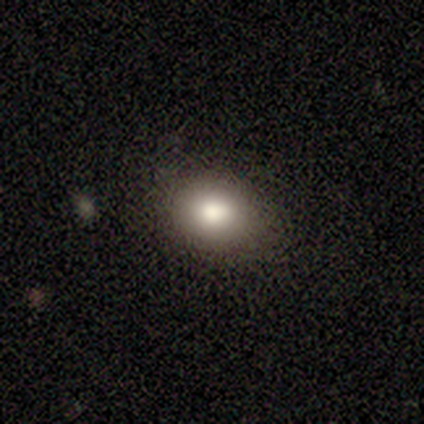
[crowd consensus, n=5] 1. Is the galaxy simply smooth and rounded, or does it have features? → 100% smooth, 0% featured or disk, 0% star or artifact.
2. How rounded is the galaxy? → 60% round, 40% in between, 0% cigar-shaped.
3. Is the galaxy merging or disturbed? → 100% none, 0% minor disturbance, 0% major disturbance, 0% merger.